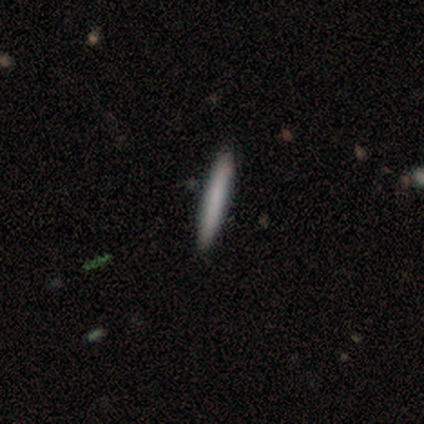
Smooth or featured?
  - smooth: 75% *
  - featured or disk: 25%
  - star or artifact: 0%
How rounded?
  - cigar-shaped: 100% *
  - round: 0%
  - in between: 0%
Merging?
  - none: 100% *
  - minor disturbance: 0%
  - major disturbance: 0%
  - merger: 0%